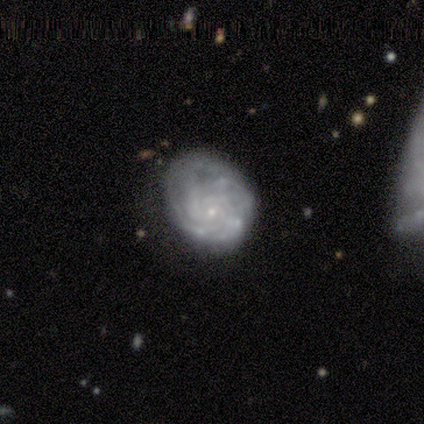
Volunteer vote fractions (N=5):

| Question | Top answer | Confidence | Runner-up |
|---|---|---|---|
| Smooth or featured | featured or disk | 100% | — |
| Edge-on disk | no | 100% | — |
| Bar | no | 60% | weak (40%) |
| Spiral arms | yes | 80% | no (20%) |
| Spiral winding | tight | 75% | loose (25%) |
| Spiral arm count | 3 | 75% | more than 4 (25%) |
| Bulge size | small | 80% | none (20%) |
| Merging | minor disturbance | 80% | none (20%) |